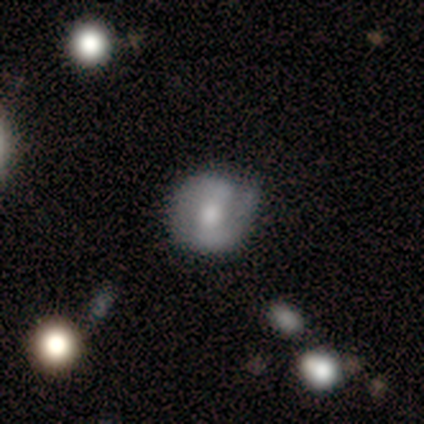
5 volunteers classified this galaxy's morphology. type=featured or disk (80%); edge-on=no (100%); bar=strong (50%); spiral arms=yes (75%); winding=tight (33%, tied with medium and loose); arm count=2 (100%); bulge=moderate (75%); merging=none (100%).